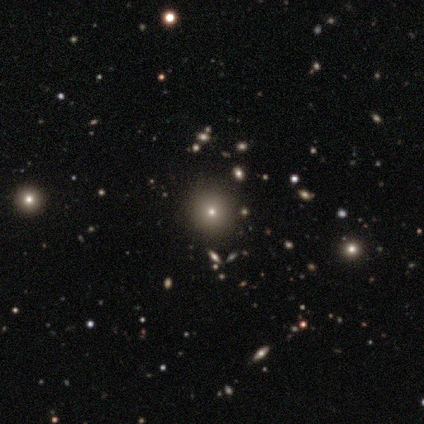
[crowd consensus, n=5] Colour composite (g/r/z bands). It shows a star or artifact, not a galaxy (60%).